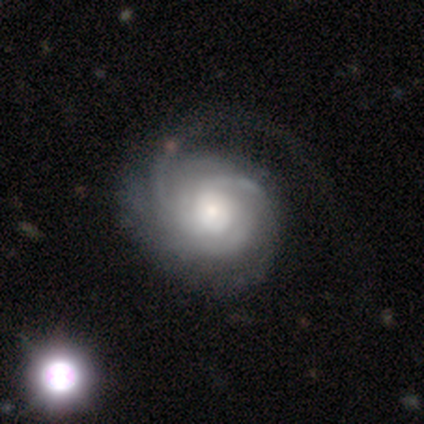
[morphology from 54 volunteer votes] type=featured or disk (85%); edge-on=no (98%); bar=no (82%); spiral arms=yes (100%); winding=tight (73%); arm count=3 (38%, tied with can't tell); bulge=moderate (56%); merging=none (45%).